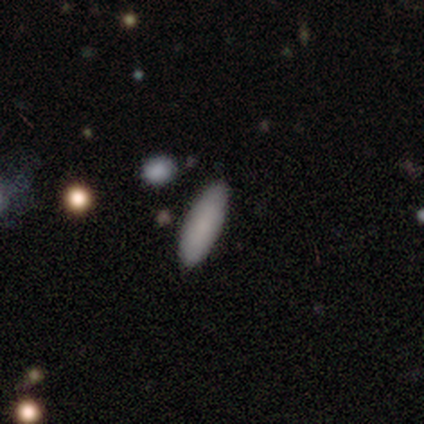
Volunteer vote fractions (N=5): This is likely a smooth galaxy (60%). How rounded: clearly in between (100%). Merging: clearly none (100%).